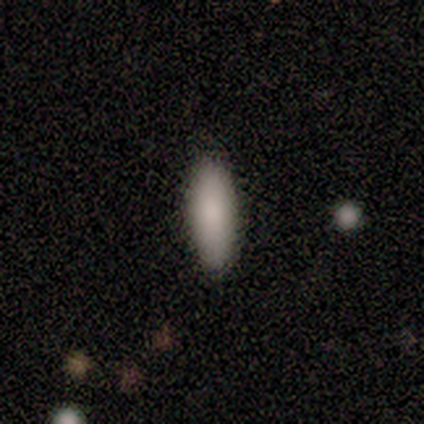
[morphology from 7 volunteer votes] A smooth galaxy with no disk features (71%) that is in between round and cigar-shaped (100%).

Vote fractions:
- Smooth or featured? smooth: 71% / featured or disk: 14% / star or artifact: 14%
- How rounded? in between: 100% / round: 0% / cigar-shaped: 0%
- Merging? none: 100% / minor disturbance: 0% / major disturbance: 0% / merger: 0%